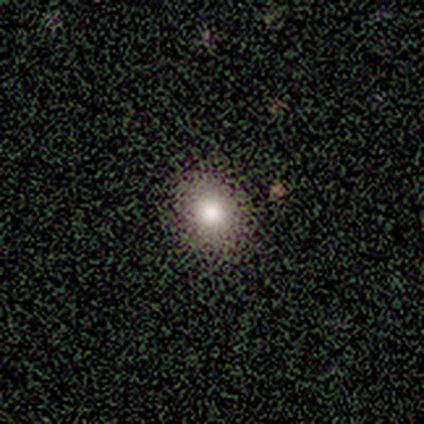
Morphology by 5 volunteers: Volunteers were most divided on "how rounded": in between: 60%, round: 40%, cigar-shaped: 0%. More confident: smooth or featured — smooth (100%); merging — none (100%).